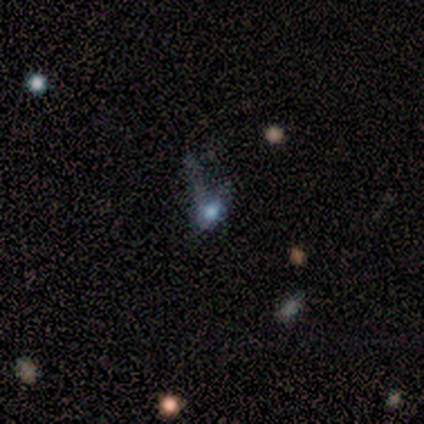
smooth-or-featured: star or artifact: 50% | smooth: 25% | featured or disk: 25%